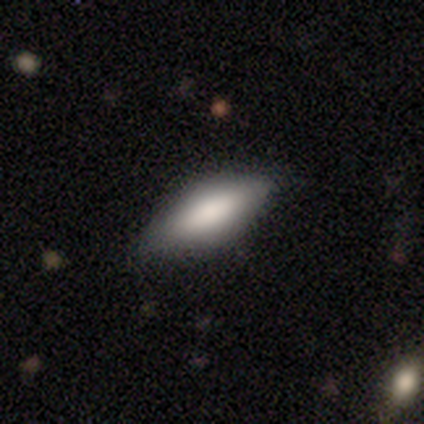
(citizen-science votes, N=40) Morphology: type=smooth (82%); roundness=in between (85%); merging=none (51%).